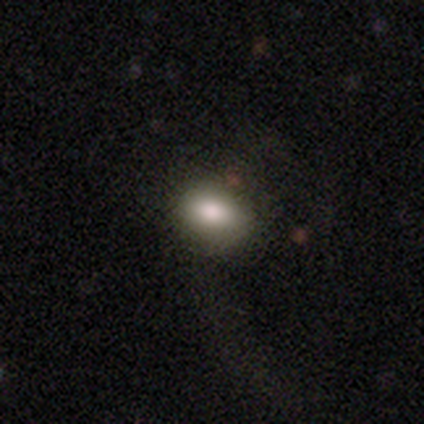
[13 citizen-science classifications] This appears to be a smooth galaxy with no disk features (85%) that is in between round and cigar-shaped (91%). Merging: none (77%).